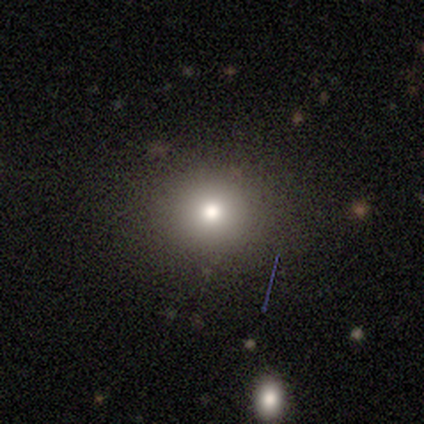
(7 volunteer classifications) A smooth galaxy with no disk features (71%) that is round (100%). Merging: none (80%).